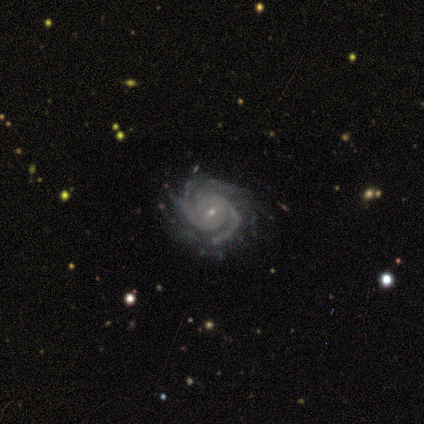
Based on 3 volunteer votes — smooth_or_featured: featured or disk (p=0.67) [alt: star or artifact p=0.33]
disk_edge_on: no (p=1.00)
bar: no (p=1.00)
has_spiral_arms: yes (p=1.00)
spiral_winding: tight (p=1.00)
spiral_arm_count: 2 (p=0.50) [tied with: more than 4 p=0.50]
bulge_size: small (p=0.50) [tied with: none p=0.50]
merging: none (p=1.00)